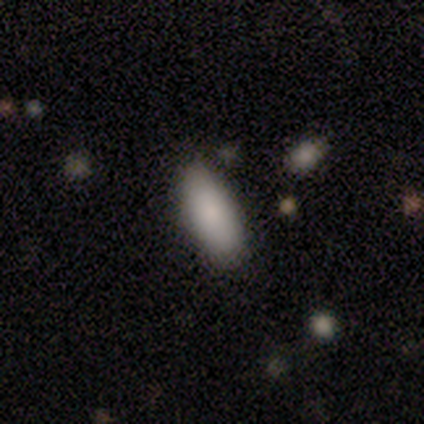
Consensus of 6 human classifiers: smooth 83%, star or artifact 17%, featured or disk 0%. Down the decision tree: how rounded — in between (80%); merging — none (80%).